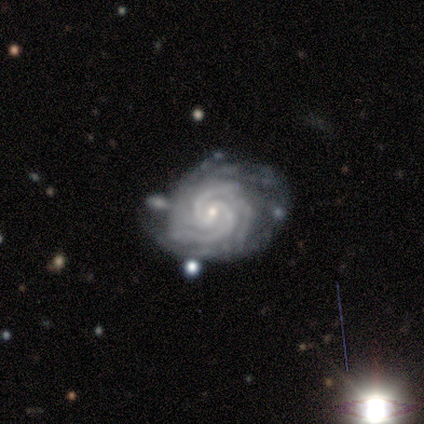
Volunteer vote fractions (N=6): Smooth or featured? 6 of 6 (100%) said featured or disk. Edge-on disk? 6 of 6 (100%) said no. Bar? 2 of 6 (33%, tied with weak and no) said strong. Spiral arms? 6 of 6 (100%) said yes. Spiral winding? 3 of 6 (50%, tied with medium) said tight. Spiral arm count? 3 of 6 (50%) said 3. Bulge size? 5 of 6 (83%) said small. Merging? 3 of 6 (50%) said none.